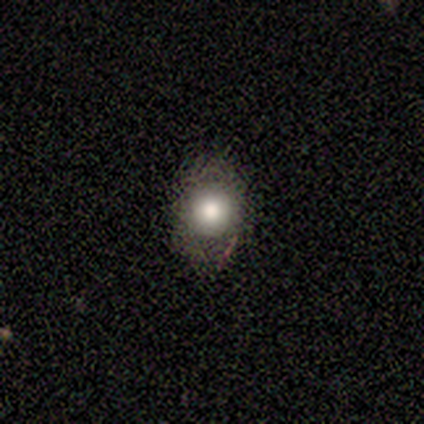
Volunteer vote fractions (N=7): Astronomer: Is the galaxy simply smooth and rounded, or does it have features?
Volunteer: smooth — 71%.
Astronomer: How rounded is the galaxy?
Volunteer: in between — 60% (runner-up: round, 40%).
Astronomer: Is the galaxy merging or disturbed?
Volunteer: none — 83%.